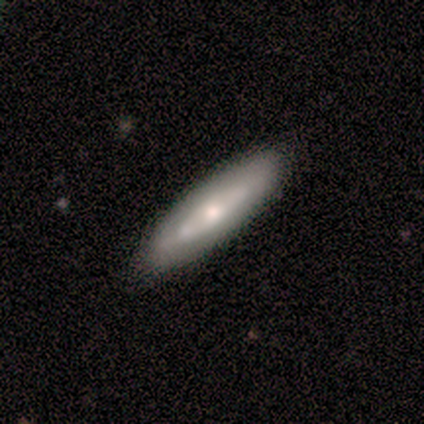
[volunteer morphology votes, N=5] This appears to be a smooth galaxy with no disk features (60%) that is in between round and cigar-shaped (67%). Merging: none (80%).